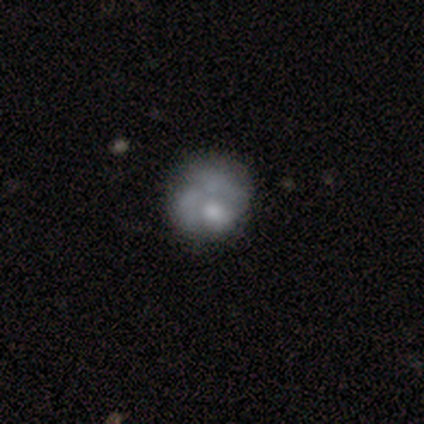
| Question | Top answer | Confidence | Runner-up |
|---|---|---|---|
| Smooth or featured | featured or disk | 80% | smooth (20%) |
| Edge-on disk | no | 100% | — |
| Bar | no | 100% | — |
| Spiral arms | no | 75% | yes (25%) |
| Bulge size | moderate | 50% | large (25%) |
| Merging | none | 60% | major disturbance (40%) |